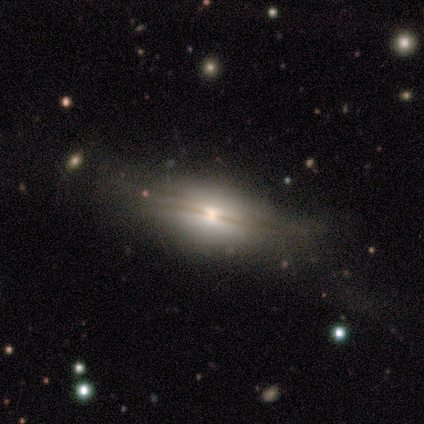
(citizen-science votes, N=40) featured or disk 55%, smooth 35%, star or artifact 10%. Down the decision tree: edge-on disk — yes (86%); edge-on bulge — rounded (84%); merging — none (75%).